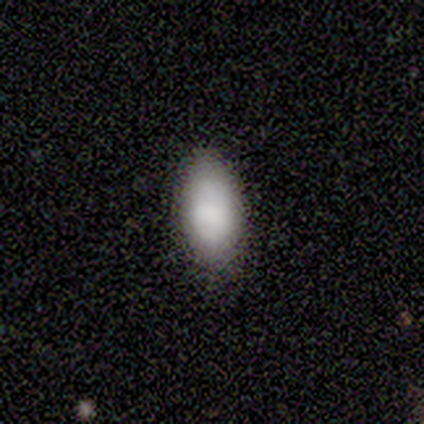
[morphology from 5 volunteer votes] This appears to be a smooth galaxy with no disk features (80%) that is in between round and cigar-shaped (100%). Merging: none (100%).